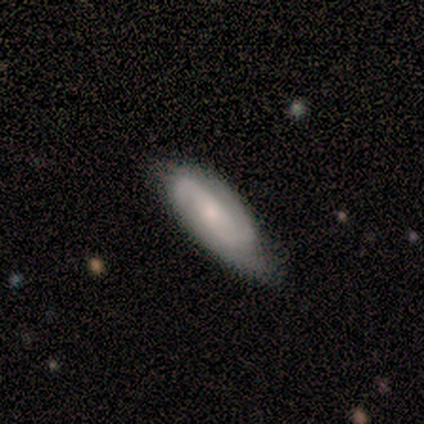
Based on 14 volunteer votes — Smooth or featured? 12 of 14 (86%) said featured or disk. Edge-on disk? 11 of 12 (92%) said no. Bar? 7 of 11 (64%) said no. Spiral arms? 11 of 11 (100%) said yes. Spiral winding? 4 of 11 (36%, tied with medium) said tight. Spiral arm count? 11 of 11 (100%) said 2. Bulge size? 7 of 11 (64%) said small. Merging? 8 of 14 (57%) said minor disturbance.